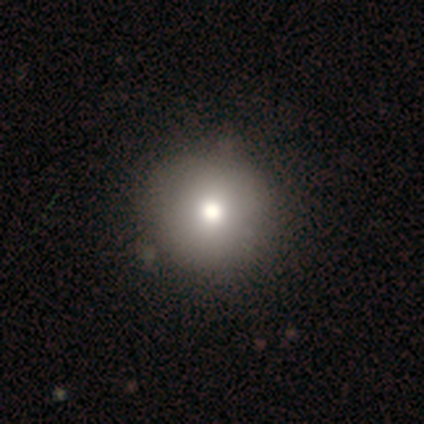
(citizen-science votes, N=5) This appears to be a smooth galaxy with no disk features (80%) that is round (100%). Merging: none (100%).